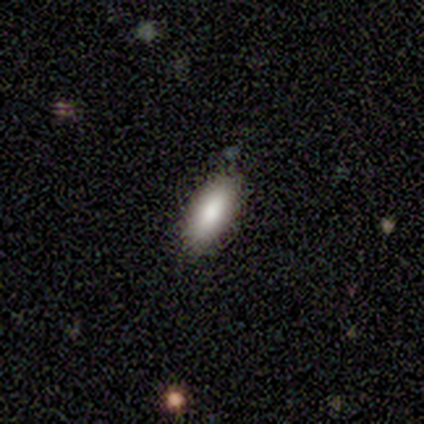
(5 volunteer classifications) Overall: smooth (80%). How rounded: in between (100%). Merging: none (60%; minor disturbance 40%).